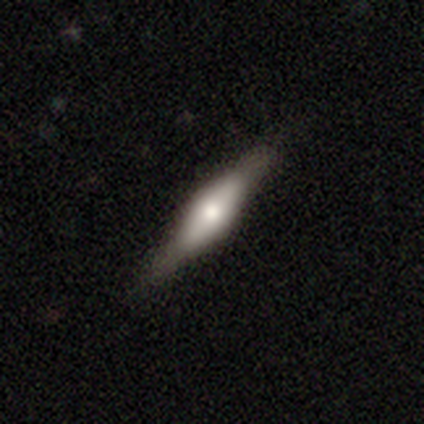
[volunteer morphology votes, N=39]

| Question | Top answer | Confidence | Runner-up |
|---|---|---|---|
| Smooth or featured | featured or disk | 59% | smooth (38%) |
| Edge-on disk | yes | 96% | no (4%) |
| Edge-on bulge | rounded | 64% | boxy (36%) |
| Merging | none | 68% | minor disturbance (8%) |